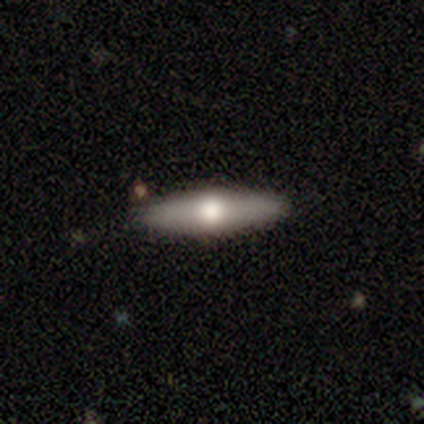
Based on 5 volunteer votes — Overall: smooth (80%). How rounded: in between (50%, tied with cigar-shaped). Merging: none (100%).